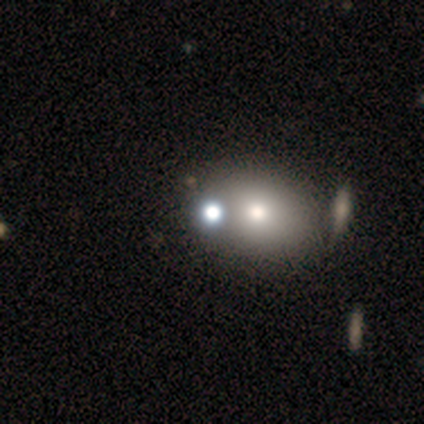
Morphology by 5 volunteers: star or artifact 80%, smooth 20%, featured or disk 0%.